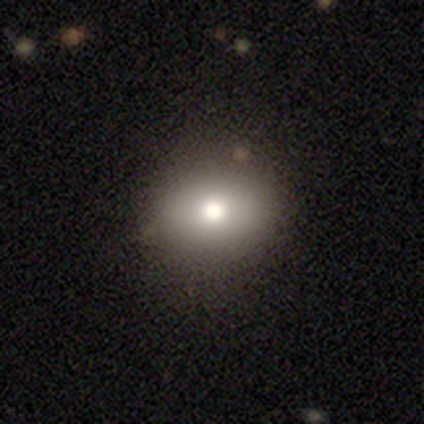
A smooth galaxy with no disk features (50%) that is round (88%). Merging: none (79%).